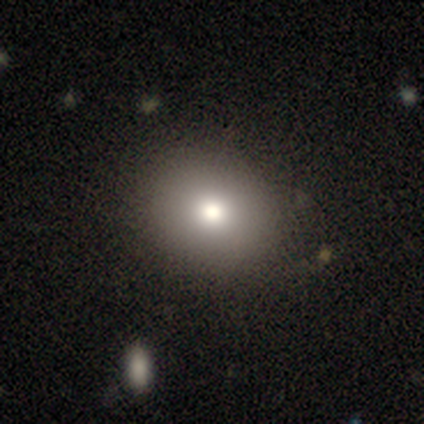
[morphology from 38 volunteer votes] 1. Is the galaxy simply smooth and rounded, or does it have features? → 82% smooth, 11% featured or disk, 8% star or artifact.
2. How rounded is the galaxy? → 68% round, 32% in between, 0% cigar-shaped.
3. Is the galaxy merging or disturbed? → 54% none, 11% merger, 3% minor disturbance, 0% major disturbance.